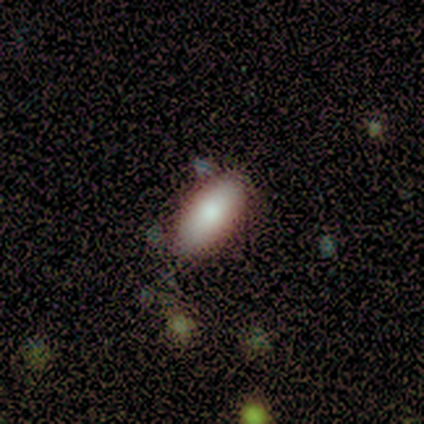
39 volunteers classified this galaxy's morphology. Smooth or featured: smooth — 77% (star or artifact — 13%)
How rounded: in between — 97% (cigar-shaped — 3%)
Merging: none — 85% (minor disturbance — 9%)